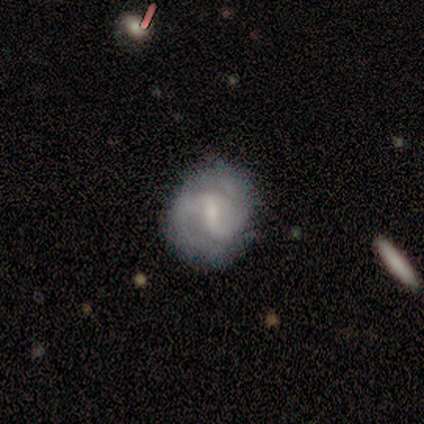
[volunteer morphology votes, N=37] smooth-or-featured: featured or disk: 78% | smooth: 19% | star or artifact: 3%
  disk-edge-on: no: 100% | yes: 0%
    bar: weak: 66% | strong: 24% | no: 10%
    has-spiral-arms: yes: 83% | no: 17%
      spiral-winding: tight: 38% | medium: 33% | loose: 29%
      spiral-arm-count: 2: 75% | 3: 12% | can't tell: 8% | more than 4: 4% | 1: 0% | 4: 0%
    bulge-size: small: 59% | moderate: 17% | none: 17% | large: 7% | dominant: 0%
  merging: none: 75% | minor disturbance: 17% | major disturbance: 8% | merger: 0%